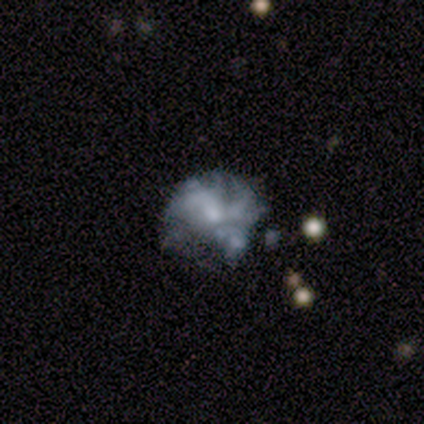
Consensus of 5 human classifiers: This appears to be a featured or disk galaxy (60%) with no bar (100%), no spiral arms (67%) and a moderate central bulge (33%, tied with small and none). Merging: none (67%).